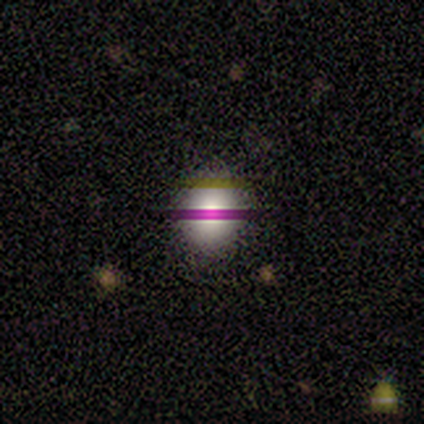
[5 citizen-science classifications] This appears to be a featured or disk galaxy (40%, tied with star or artifact) viewed edge-on (50%, tied with no) with a rounded central bulge (100%). Merging: none (67%).